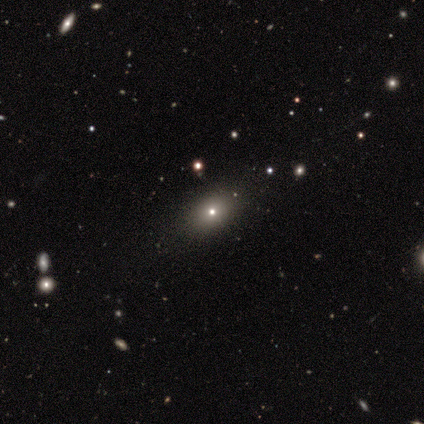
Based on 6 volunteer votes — This appears to be a featured or disk galaxy (67%) with no bar (100%), no spiral arms (75%) and a large central bulge (50%, tied with moderate). Merging: none (83%).